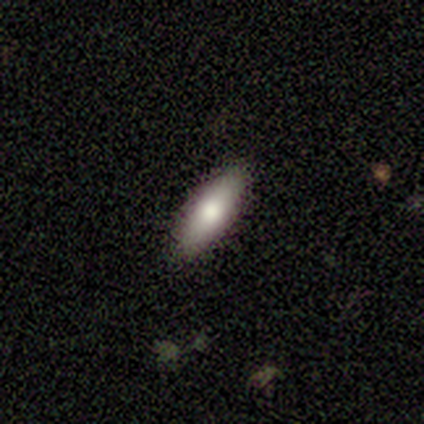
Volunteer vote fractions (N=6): Smooth or featured: smooth — 100%
How rounded: in between — 67% (cigar-shaped — 33%)
Merging: none — 100%